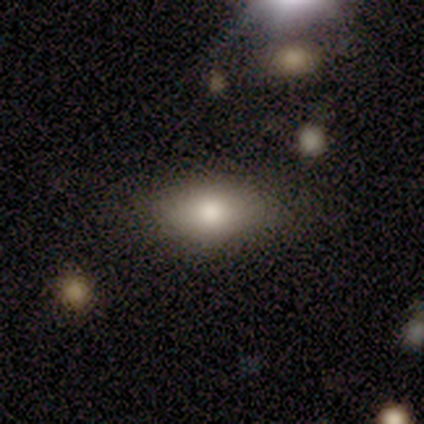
A smooth galaxy with no disk features (100%) that is in between round and cigar-shaped (100%). Merging: none (80%).